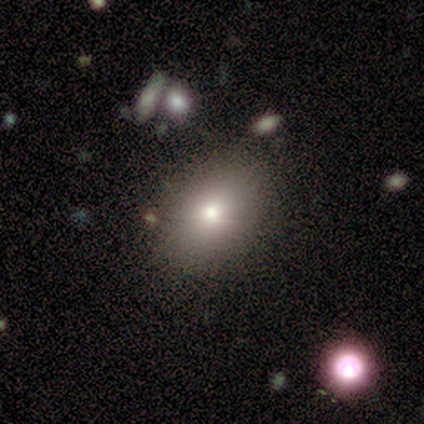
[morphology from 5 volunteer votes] This is likely a smooth galaxy (60%). How rounded: clearly in between (100%). Merging: possibly none (50%, tied with merger).